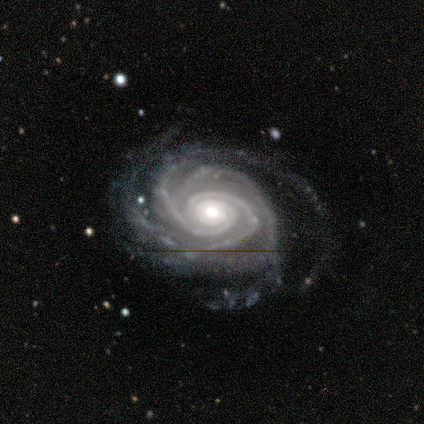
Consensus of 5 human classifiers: Smooth or featured? 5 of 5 (100%) said featured or disk. Edge-on disk? 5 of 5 (100%) said no. Bar? 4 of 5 (80%) said no. Spiral arms? 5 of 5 (100%) said yes. Spiral winding? 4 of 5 (80%) said tight. Spiral arm count? 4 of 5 (80%) said 3. Bulge size? 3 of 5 (60%) said moderate. Merging? 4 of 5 (80%) said none.